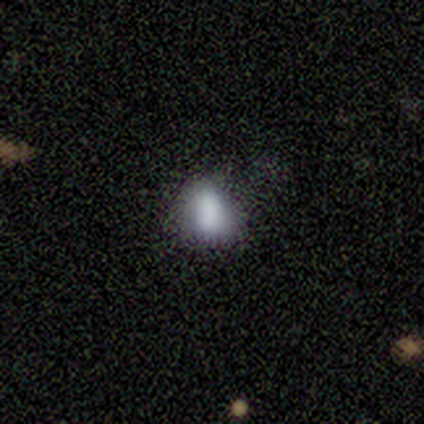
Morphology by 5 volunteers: A smooth galaxy with no disk features (60%) that is round (67%). Merging: minor disturbance (60%).